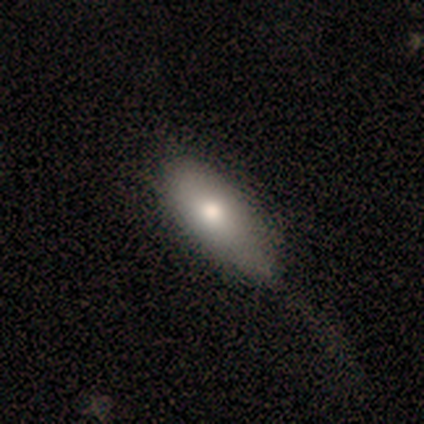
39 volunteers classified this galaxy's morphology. Q: Smooth or featured?
A: smooth (74%); runner-up: featured or disk (21%)
Q: How rounded?
A: in between (83%); runner-up: cigar-shaped (17%)
Q: Merging?
A: none (32%); runner-up: minor disturbance (27%)